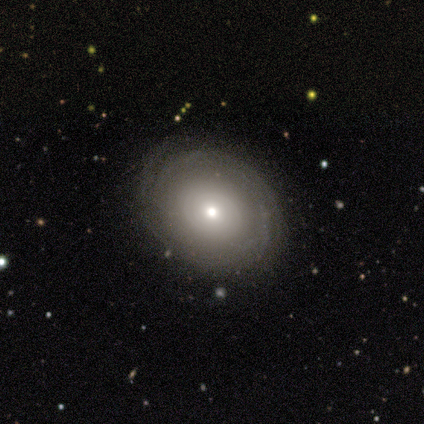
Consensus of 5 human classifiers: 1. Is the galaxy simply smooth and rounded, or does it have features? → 80% featured or disk, 20% smooth, 0% star or artifact.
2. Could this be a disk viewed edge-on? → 100% no, 0% yes.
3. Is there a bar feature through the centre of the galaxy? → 50% weak (tied), 50% no (tied), 0% strong.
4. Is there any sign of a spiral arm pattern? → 100% yes, 0% no.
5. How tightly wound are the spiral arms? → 75% medium, 25% tight, 0% loose.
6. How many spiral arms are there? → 50% 4, 25% 2, 25% can't tell, 0% 1, 0% 3, 0% more than 4.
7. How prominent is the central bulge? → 75% small, 25% moderate, 0% dominant, 0% large, 0% none.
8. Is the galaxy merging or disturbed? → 60% none, 40% minor disturbance, 0% major disturbance, 0% merger.